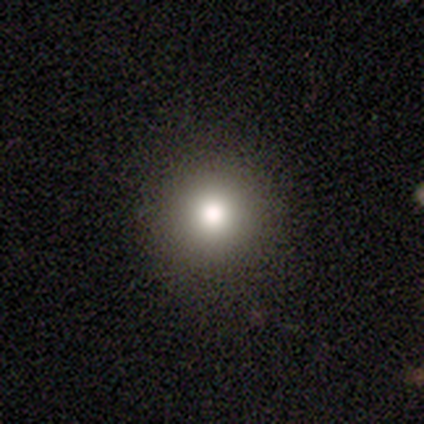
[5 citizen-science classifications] This is clearly a smooth galaxy (80%). How rounded: clearly round (100%). Merging: clearly none (100%).